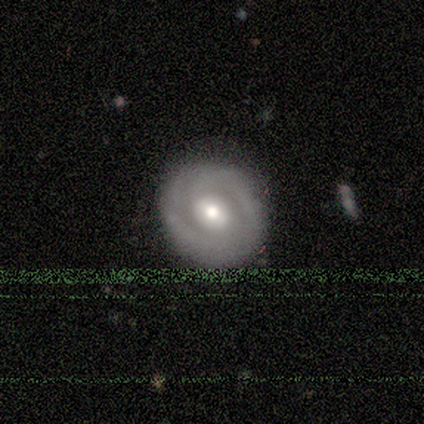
Q: Smooth or featured?
A: featured or disk (80%); runner-up: smooth (20%)
Q: Edge-on disk?
A: no (75%); runner-up: yes (25%)
Q: Bar?
A: no (67%); runner-up: strong (33%)
Q: Spiral arms?
A: no (100%)
Q: Bulge size?
A: moderate (100%)
Q: Merging?
A: none (100%)